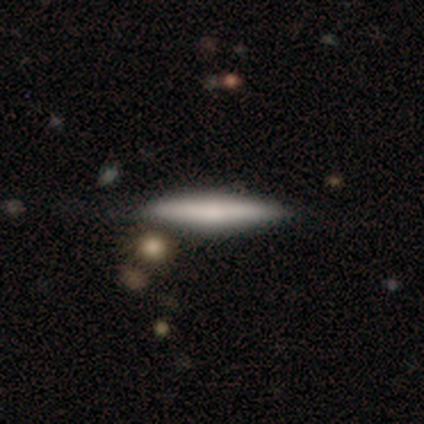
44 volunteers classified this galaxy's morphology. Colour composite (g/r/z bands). It shows a smooth galaxy with no disk features (55%) that is cigar-shaped (100%). Merging: none (79%).